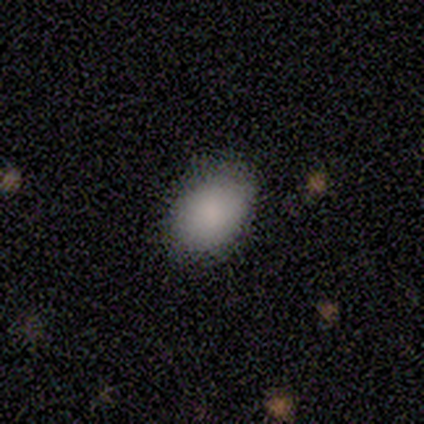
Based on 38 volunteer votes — Volunteers were most divided on "merging": none: 69%, merger: 6%, minor disturbance: 3%, major disturbance: 0%. More confident: how rounded — in between (91%); smooth or featured — smooth (87%).